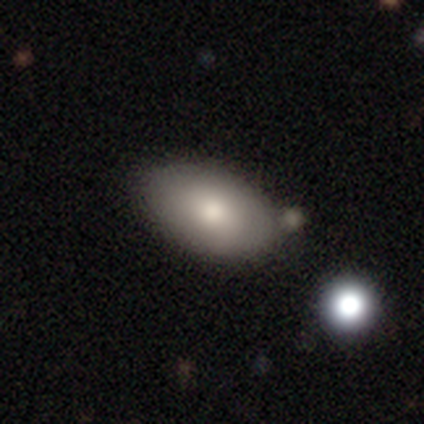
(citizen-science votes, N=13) Smooth or featured?
  - smooth: 92% *
  - featured or disk: 8%
  - star or artifact: 0%
How rounded?
  - in between: 92% *
  - cigar-shaped: 8%
  - round: 0%
Merging?
  - none: 69% *
  - minor disturbance: 31%
  - major disturbance: 0%
  - merger: 0%